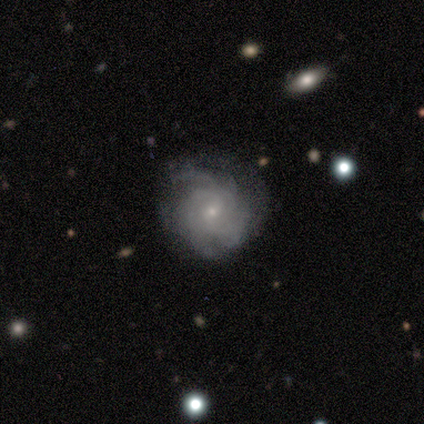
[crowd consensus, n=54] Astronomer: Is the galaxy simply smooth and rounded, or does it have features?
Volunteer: featured or disk — 83%.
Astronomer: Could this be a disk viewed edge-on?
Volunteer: no — 96%.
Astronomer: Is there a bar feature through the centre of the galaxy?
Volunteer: no — 63%.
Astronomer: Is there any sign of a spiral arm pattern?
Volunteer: yes — 98%.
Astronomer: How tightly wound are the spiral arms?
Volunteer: tight — 57%.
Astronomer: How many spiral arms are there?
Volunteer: can't tell — 48%.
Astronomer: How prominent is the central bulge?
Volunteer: small — 77%.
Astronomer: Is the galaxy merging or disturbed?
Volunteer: none — 61%.